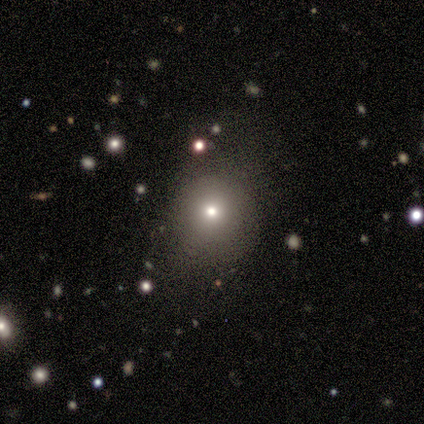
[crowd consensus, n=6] smooth 67%, star or artifact 33%, featured or disk 0%. Down the decision tree: how rounded — round (50%, tied with in between); merging — none (50%).